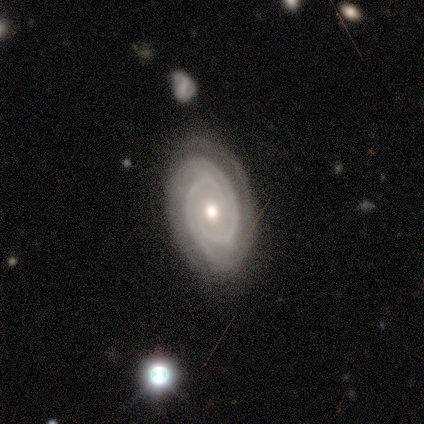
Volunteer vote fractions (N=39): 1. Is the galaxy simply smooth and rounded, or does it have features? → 87% featured or disk, 10% smooth, 3% star or artifact.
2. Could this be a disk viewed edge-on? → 94% no, 6% yes.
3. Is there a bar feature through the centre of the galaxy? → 88% no, 12% weak, 0% strong.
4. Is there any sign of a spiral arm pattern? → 91% yes, 9% no.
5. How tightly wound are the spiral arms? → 69% tight, 24% medium, 7% loose.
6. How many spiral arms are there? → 62% 2, 21% 3, 14% can't tell, 3% 4, 0% 1, 0% more than 4.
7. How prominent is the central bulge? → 66% moderate, 22% small, 9% large, 3% none, 0% dominant.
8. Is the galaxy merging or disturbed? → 74% none, 21% minor disturbance, 5% major disturbance, 0% merger.